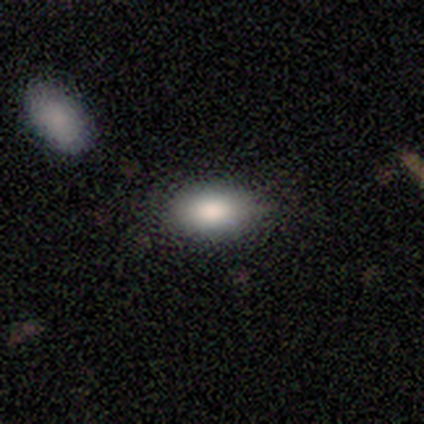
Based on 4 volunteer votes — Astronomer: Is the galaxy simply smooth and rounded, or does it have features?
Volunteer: smooth — 100%.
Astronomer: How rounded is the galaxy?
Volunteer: in between — 75%.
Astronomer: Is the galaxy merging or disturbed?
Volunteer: none — 75%.